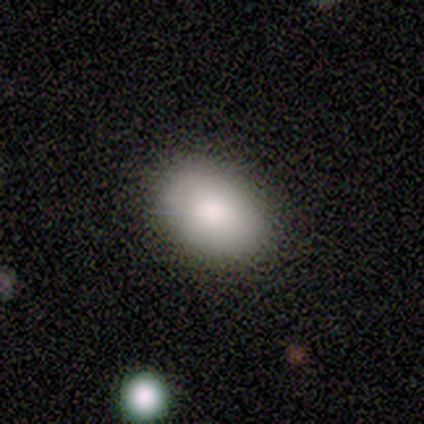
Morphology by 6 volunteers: Smooth or featured: smooth — 100%
How rounded: in between — 83% (round — 17%)
Merging: none — 83% (minor disturbance — 17%)